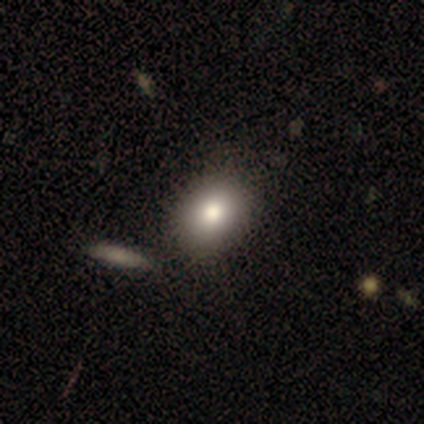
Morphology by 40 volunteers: Q: Smooth or featured?
A: smooth (78%); runner-up: featured or disk (12%)
Q: How rounded?
A: in between (55%); runner-up: round (42%)
Q: Merging?
A: none (53%); runner-up: merger (25%)